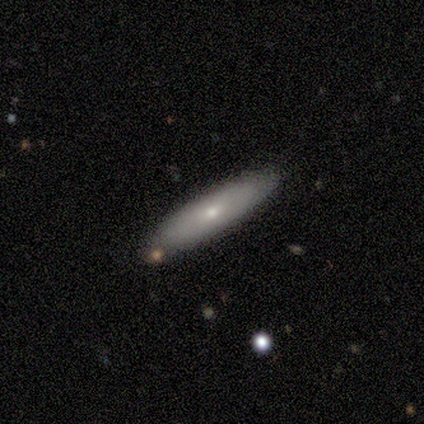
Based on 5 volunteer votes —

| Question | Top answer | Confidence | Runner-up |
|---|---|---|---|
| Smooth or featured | smooth | 80% | featured or disk (20%) |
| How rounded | in between | 50% | tied: cigar-shaped (50%) |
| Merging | none | 80% | major disturbance (20%) |